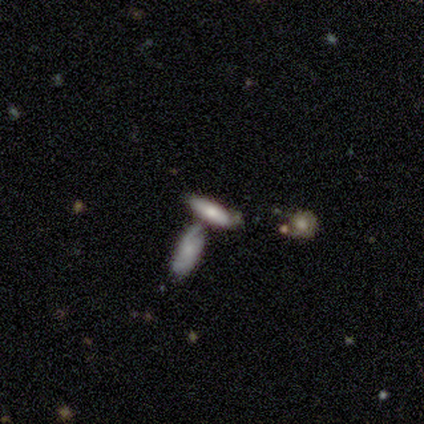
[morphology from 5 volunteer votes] This is likely a smooth galaxy (60%). How rounded: clearly cigar-shaped (100%). Merging: clearly none (80%).